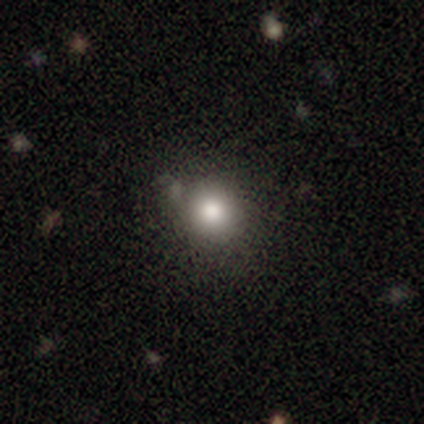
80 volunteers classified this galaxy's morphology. Overall: smooth (81%). How rounded: round (91%). Merging: none (34%; merger 18%).